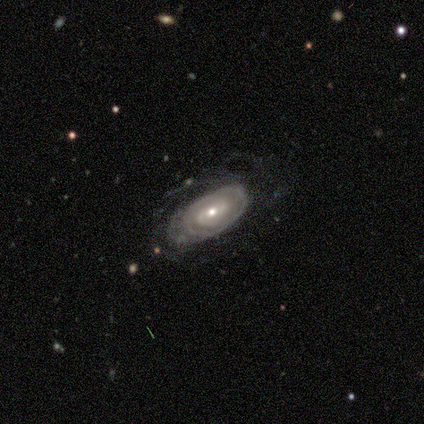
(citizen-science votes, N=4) This appears to be a featured or disk galaxy (100%) with a weak bar (50%, tied with no), tight (75%) spiral arms (100%) and a small central bulge (75%). Merging: none (75%).